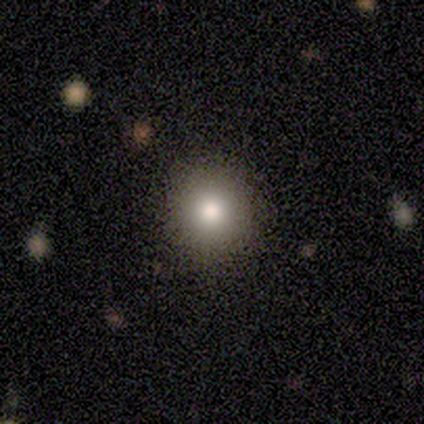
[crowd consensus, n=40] This appears to be a smooth galaxy with no disk features (90%) that is round (94%). Merging: none (58%).